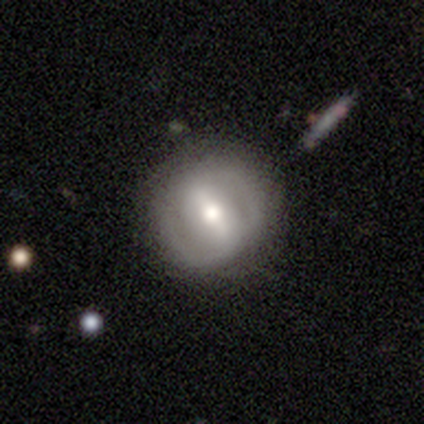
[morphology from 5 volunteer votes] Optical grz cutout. It shows a featured or disk galaxy (60%) with a strong bar (67%), 2 (100%) tight (50%, tied with medium) spiral arms (67%) and a moderate central bulge (100%). Merging: none (80%).